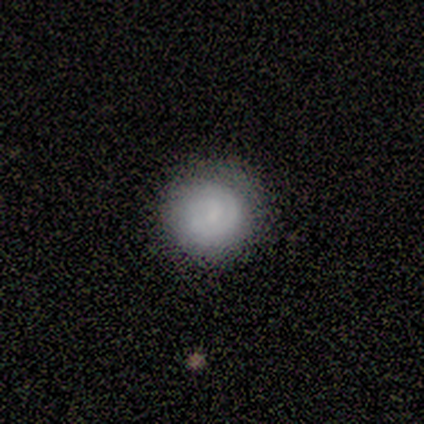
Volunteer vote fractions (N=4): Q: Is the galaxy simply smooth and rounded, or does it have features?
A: featured or disk — 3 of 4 (75%).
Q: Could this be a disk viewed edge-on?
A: no — 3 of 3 (100%).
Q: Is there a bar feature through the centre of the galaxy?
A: weak — 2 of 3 (67%).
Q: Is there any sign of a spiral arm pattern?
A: yes — 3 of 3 (100%).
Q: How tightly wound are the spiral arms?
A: tight — 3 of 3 (100%).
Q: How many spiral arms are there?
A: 1 — 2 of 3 (67%).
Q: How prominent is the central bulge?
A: small — 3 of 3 (100%).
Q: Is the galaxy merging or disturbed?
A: none — 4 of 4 (100%).